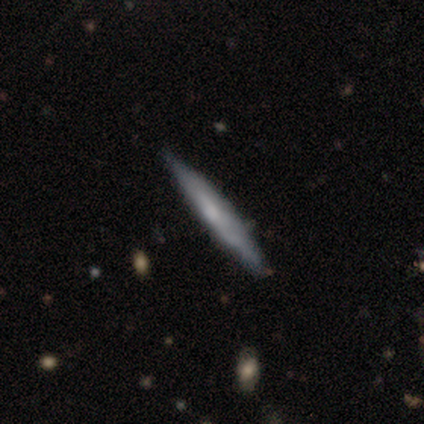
Volunteers were most divided on "smooth or featured": smooth: 52%, featured or disk: 40%, star or artifact: 8%. More confident: how rounded — cigar-shaped (100%); merging — none (84%).